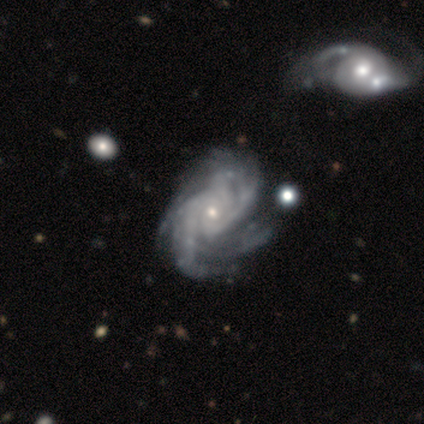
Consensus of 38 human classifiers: This appears to be a featured or disk galaxy (97%) with no bar (61%), more than 4 (25%) medium (53%) spiral arms (100%) and a small central bulge (83%). Merging: none (62%).